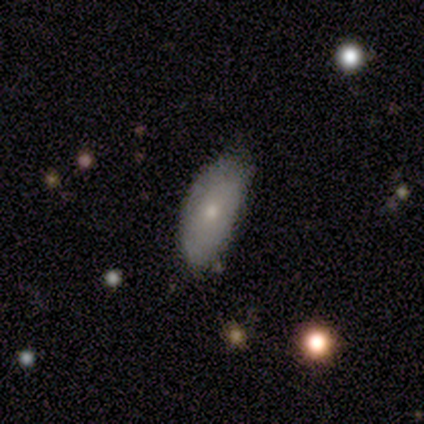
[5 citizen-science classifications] A smooth galaxy with no disk features (100%) that is in between round and cigar-shaped (80%). Merging: none (60%).